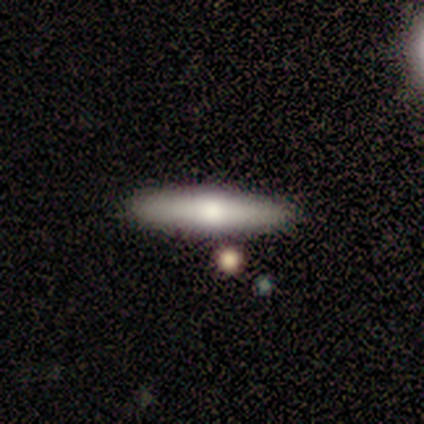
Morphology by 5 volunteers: Q: Smooth or featured?
A: smooth (80%); runner-up: featured or disk (20%)
Q: How rounded?
A: cigar-shaped (75%); runner-up: in between (25%)
Q: Merging?
A: none (80%); runner-up: merger (20%)